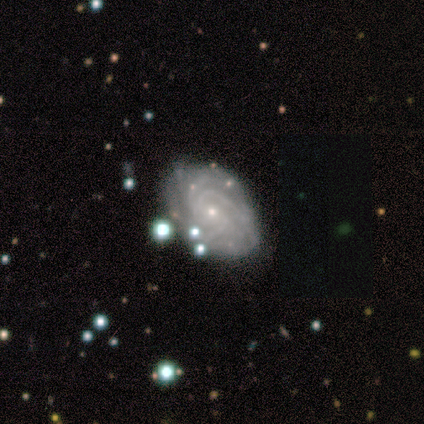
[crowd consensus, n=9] featured or disk 100%, smooth 0%, star or artifact 0%. Down the decision tree: edge-on disk — no (100%); bar — no (56%); spiral arms — yes (100%); spiral arm count — more than 4 (44%); spiral winding — medium (56%); bulge size — small (78%); merging — none (67%).